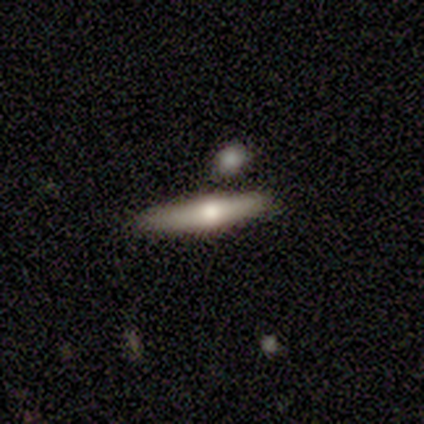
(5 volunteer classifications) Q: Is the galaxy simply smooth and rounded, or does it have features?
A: featured or disk — 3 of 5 (60%).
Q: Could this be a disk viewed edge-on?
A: yes — 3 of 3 (100%).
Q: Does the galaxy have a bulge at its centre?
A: rounded — 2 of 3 (67%).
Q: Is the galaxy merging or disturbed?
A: none — 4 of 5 (80%).